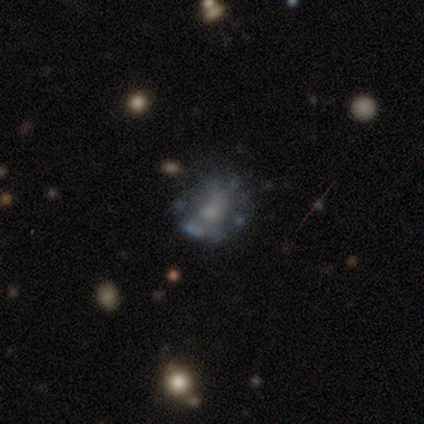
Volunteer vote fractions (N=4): Smooth or featured? 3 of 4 (75%) said featured or disk. Edge-on disk? 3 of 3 (100%) said no. Bar? 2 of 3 (67%) said no. Spiral arms? 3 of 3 (100%) said no. Bulge size? 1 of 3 (33%, tied with small and none) said moderate. Merging? 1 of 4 (25%, tied with minor disturbance, major disturbance and merger) said none.